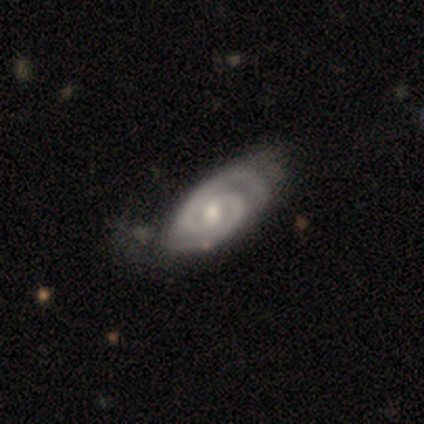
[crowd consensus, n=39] Smooth or featured? featured or disk (85%)
Edge-on disk? no (97%)
Bar? weak (56%)
Spiral arms? yes (94%)
Spiral winding? tight (57%)
Spiral arm count? 2 (90%)
Bulge size? moderate (66%)
Merging? minor disturbance (42%)